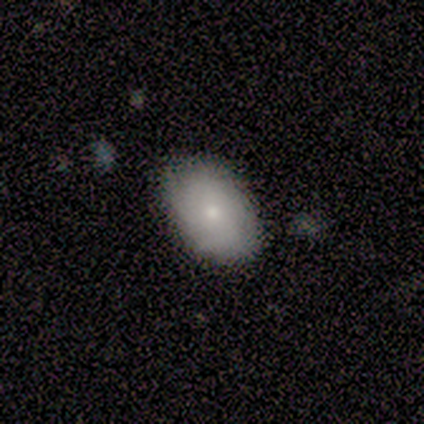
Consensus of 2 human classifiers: smooth_or_featured: smooth (p=0.50) [tied with: featured or disk p=0.50]
how_rounded: in between (p=1.00)
merging: none (p=1.00)